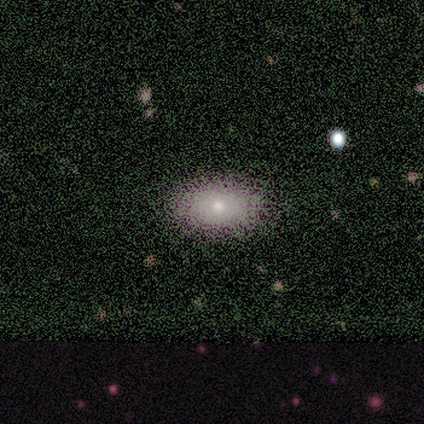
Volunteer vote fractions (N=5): smooth_or_featured: smooth (p=0.80) [alt: star or artifact p=0.20]
how_rounded: in between (p=1.00)
merging: none (p=1.00)